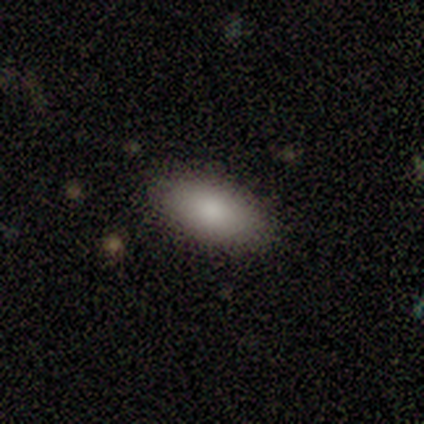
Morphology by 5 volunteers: A smooth galaxy with no disk features (100%) that is in between round and cigar-shaped (100%). Merging: none (80%).